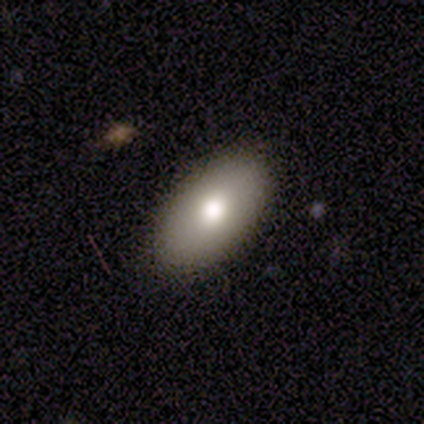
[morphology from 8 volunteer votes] A smooth galaxy with no disk features (100%) that is in between round and cigar-shaped (75%).

Vote fractions:
- Smooth or featured? smooth: 100% / featured or disk: 0% / star or artifact: 0%
- How rounded? in between: 75% / round: 12% / cigar-shaped: 12%
- Merging? none: 88% / minor disturbance: 12% / major disturbance: 0% / merger: 0%